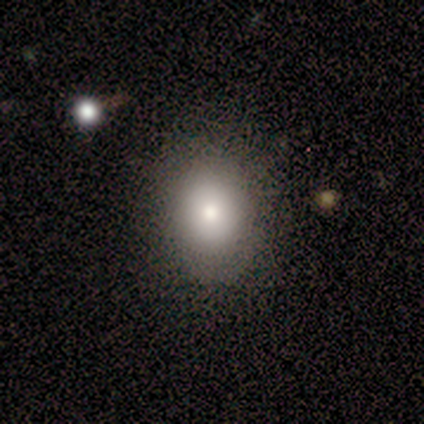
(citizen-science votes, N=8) Smooth or featured? smooth (75%)
How rounded? in between (67%)
Merging? none (67%)